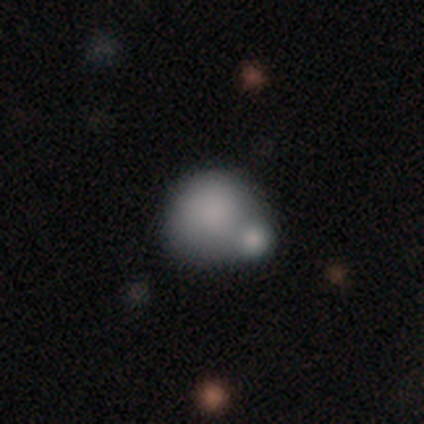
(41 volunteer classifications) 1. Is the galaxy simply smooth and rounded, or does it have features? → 68% smooth, 20% featured or disk, 12% star or artifact.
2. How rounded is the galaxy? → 82% round, 18% in between, 0% cigar-shaped.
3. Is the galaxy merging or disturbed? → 61% merger, 17% none, 17% minor disturbance, 6% major disturbance.